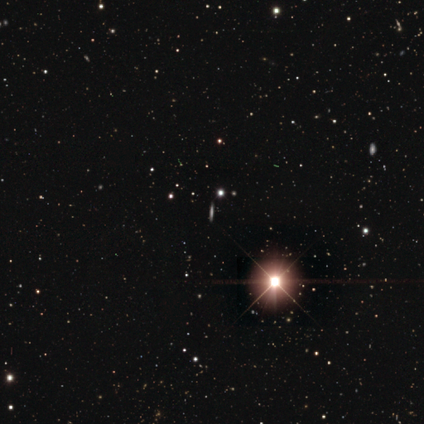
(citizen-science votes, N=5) Overall: featured or disk (40%, tied with star or artifact). Edge-on disk: yes (100%). Edge-on bulge: none (100%). Merging: none (100%).